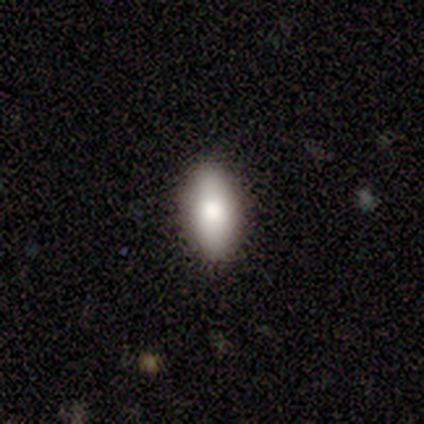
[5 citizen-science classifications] Volunteers were most divided on "how rounded": in between: 80%, cigar-shaped: 20%, round: 0%. More confident: smooth or featured — smooth (100%); merging — none (100%).